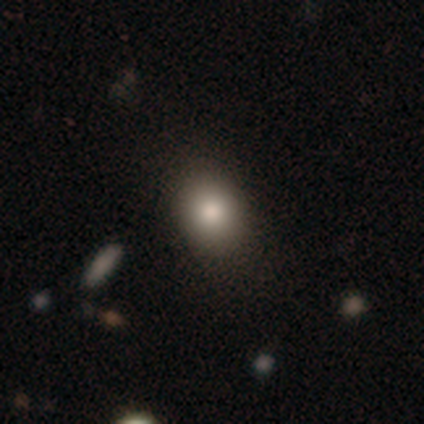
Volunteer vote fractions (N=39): smooth 79%, star or artifact 13%, featured or disk 8%. Down the decision tree: how rounded — round (58%); merging — none (85%).